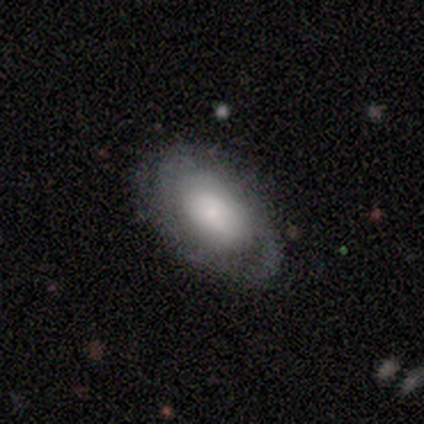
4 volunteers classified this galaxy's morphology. Smooth or featured? featured or disk (100%)
Edge-on disk? no (100%)
Bar? no (100%)
Spiral arms? no (75%)
Bulge size? dominant (25%, tied with large, moderate and small)
Merging? none (50%, tied with minor disturbance)